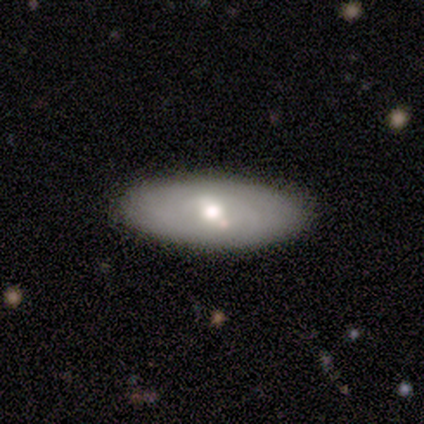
featured or disk 75%, smooth 25%, star or artifact 0%. Down the decision tree: edge-on disk — no (67%); bar — weak (100%); spiral arms — no (100%); bulge size — moderate (100%); merging — none (100%).